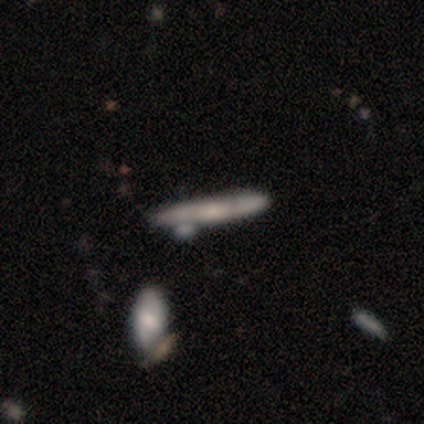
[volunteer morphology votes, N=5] smooth_or_featured: featured or disk (p=0.60) [alt: smooth p=0.20]
disk_edge_on: yes (p=1.00)
edge_on_bulge: none (p=0.67) [alt: boxy p=0.33]
merging: none (p=0.50) [tied with: merger p=0.50]